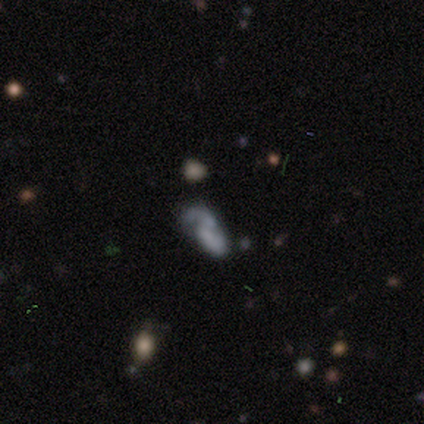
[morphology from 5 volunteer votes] Overall: featured or disk (80%). Edge-on disk: no (100%). Bar: weak (50%, tied with no). Spiral arms: yes (100%). Spiral arm count: 2 (75%). Spiral winding: medium (100%). Bulge size: small (50%, tied with none). Merging: none (40%; minor disturbance 20%).